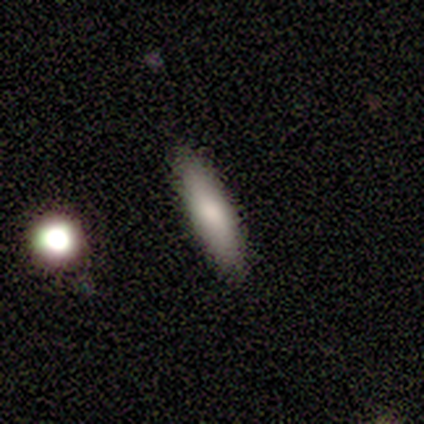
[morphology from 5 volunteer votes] This is likely a smooth galaxy (60%). How rounded: likely in between (67%). Merging: clearly none (100%).